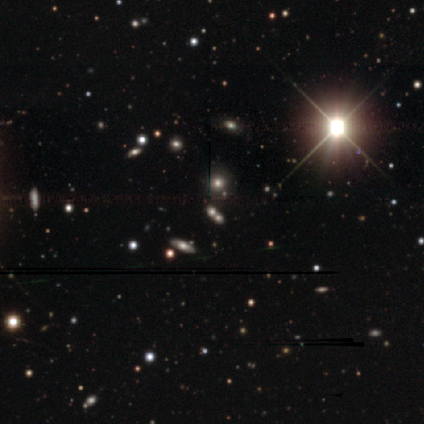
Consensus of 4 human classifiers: Q: Smooth or featured?
A: star or artifact (100%)